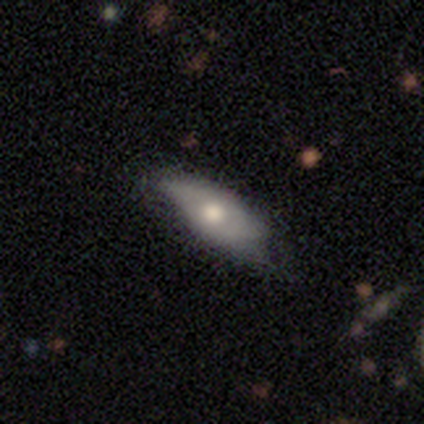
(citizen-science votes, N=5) A featured or disk galaxy (60%) with no bar (100%), no spiral arms (100%) and a moderate central bulge (100%).

Vote fractions:
- Smooth or featured? featured or disk: 60% / smooth: 40% / star or artifact: 0%
- Edge-on disk? no: 100% / yes: 0%
- Bar? no: 100% / strong: 0% / weak: 0%
- Spiral arms? no: 100% / yes: 0%
- Bulge size? moderate: 100% / dominant: 0% / large: 0% / small: 0% / none: 0%
- Merging? minor disturbance: 60% / none: 40% / major disturbance: 0% / merger: 0%